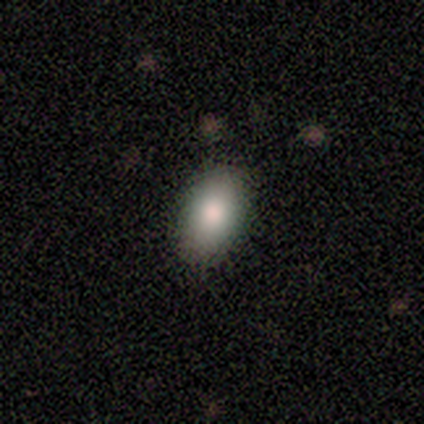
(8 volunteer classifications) Overall: smooth (62%; featured or disk 38%). How rounded: in between (100%). Merging: none (88%).